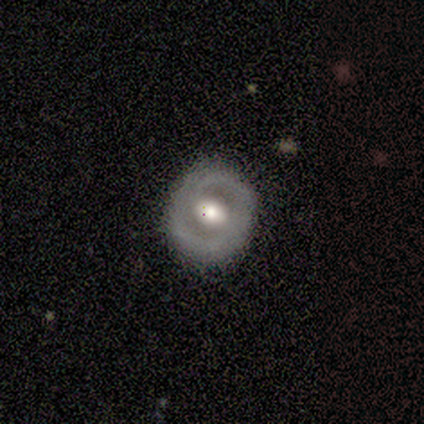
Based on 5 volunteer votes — A smooth galaxy with no disk features (40%, tied with featured or disk) that is round (50%, tied with in between). Merging: none (100%).